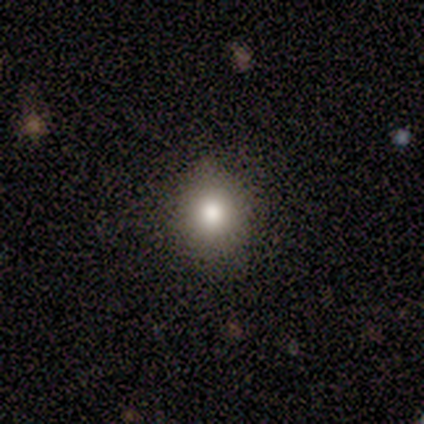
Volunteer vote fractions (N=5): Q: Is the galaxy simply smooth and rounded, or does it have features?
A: smooth — 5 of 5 (100%).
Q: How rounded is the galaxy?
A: round — 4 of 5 (80%).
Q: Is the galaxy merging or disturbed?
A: none — 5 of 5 (100%).